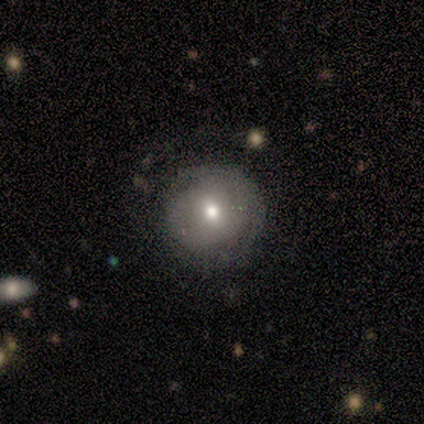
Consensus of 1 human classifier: This appears to be a smooth galaxy with no disk features (100%) that is round (100%). Merging: none (100%).